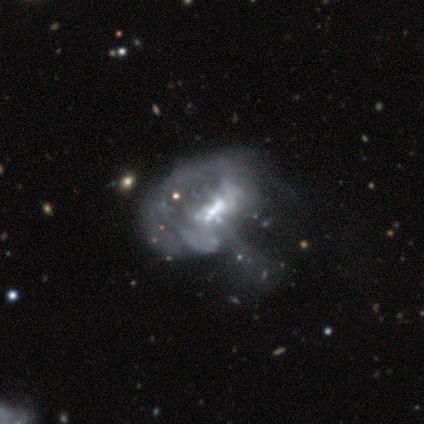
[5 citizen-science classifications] Smooth or featured?
  - featured or disk: 80% *
  - smooth: 20%
  - star or artifact: 0%
Edge-on disk?
  - no: 100% *
  - yes: 0%
Bar?
  - weak: 50% * (tied)
  - no: 50% * (tied)
  - strong: 0%
Spiral arms?
  - no: 75% *
  - yes: 25%
Bulge size?
  - small: 50% *
  - moderate: 25%
  - none: 25%
  - dominant: 0%
  - large: 0%
Merging?
  - major disturbance: 60% *
  - none: 20%
  - minor disturbance: 20%
  - merger: 0%